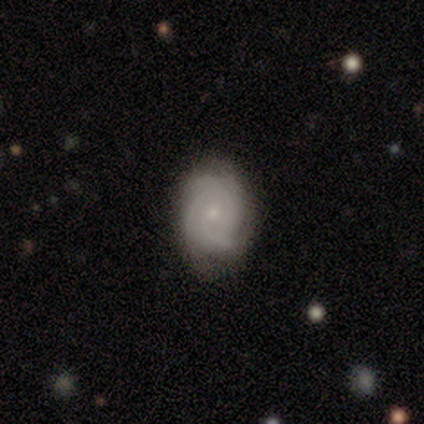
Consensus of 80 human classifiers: Overall: featured or disk (85%). Edge-on disk: no (100%). Bar: no (88%). Spiral arms: yes (94%). Spiral arm count: 4 (44%; 3 23%). Spiral winding: tight (67%). Bulge size: small (68%; moderate 29%). Merging: none (76%).